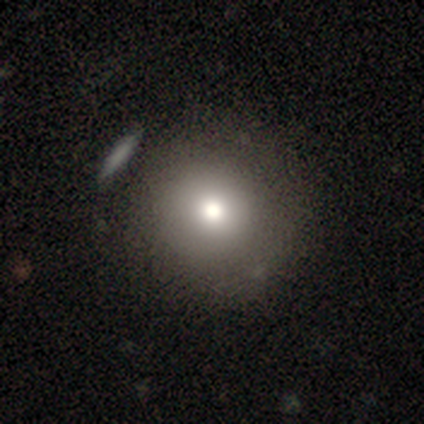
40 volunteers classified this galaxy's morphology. A smooth galaxy with no disk features (85%) that is round (100%).

Vote fractions:
- Smooth or featured? smooth: 85% / featured or disk: 8% / star or artifact: 8%
- How rounded? round: 100% / in between: 0% / cigar-shaped: 0%
- Merging? none: 76% / minor disturbance: 5% / merger: 3% / major disturbance: 0%